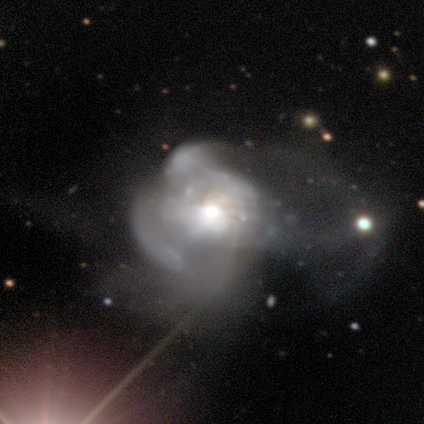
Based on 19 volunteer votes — smooth-or-featured: featured or disk: 84% | star or artifact: 11% | smooth: 5%
  disk-edge-on: no: 100% | yes: 0%
    bar: no: 94% | strong: 6% | weak: 0%
    has-spiral-arms: no: 69% | yes: 31%
    bulge-size: moderate: 56% | large: 31% | small: 12% | dominant: 0% | none: 0%
  merging: major disturbance: 65% | merger: 29% | none: 6% | minor disturbance: 0%